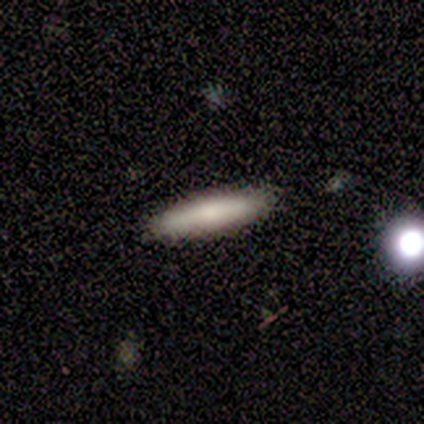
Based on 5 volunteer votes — Volunteers were most divided on "smooth or featured": smooth: 60%, featured or disk: 40%, star or artifact: 0%. More confident: how rounded — cigar-shaped (100%); merging — none (80%).